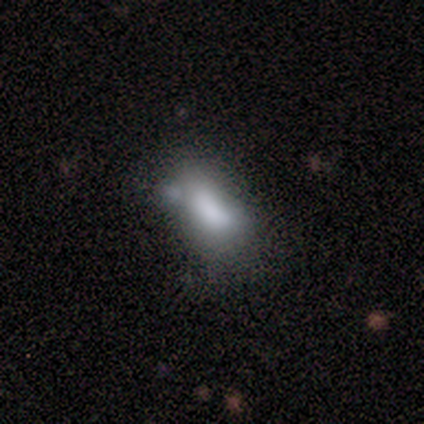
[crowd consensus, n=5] Overall: smooth (100%). How rounded: in between (100%). Merging: minor disturbance (60%; merger 40%).